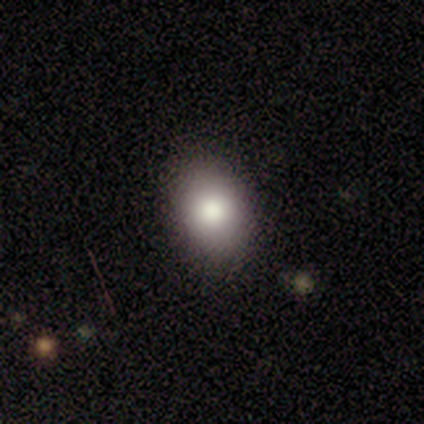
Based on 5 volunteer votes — A smooth galaxy with no disk features (60%) that is round (67%).

Vote fractions:
- Smooth or featured? smooth: 60% / star or artifact: 40% / featured or disk: 0%
- How rounded? round: 67% / in between: 33% / cigar-shaped: 0%
- Merging? none: 100% / minor disturbance: 0% / major disturbance: 0% / merger: 0%